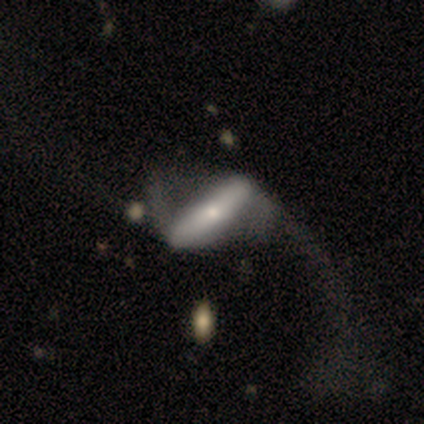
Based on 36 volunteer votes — Smooth or featured? 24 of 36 (67%) said featured or disk. Edge-on disk? 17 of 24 (71%) said no. Bar? 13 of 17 (76%) said strong. Spiral arms? 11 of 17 (65%) said yes. Spiral winding? 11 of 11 (100%) said loose. Spiral arm count? 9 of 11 (82%) said 2. Bulge size? 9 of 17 (53%) said small. Merging? 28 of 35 (80%) said major disturbance.